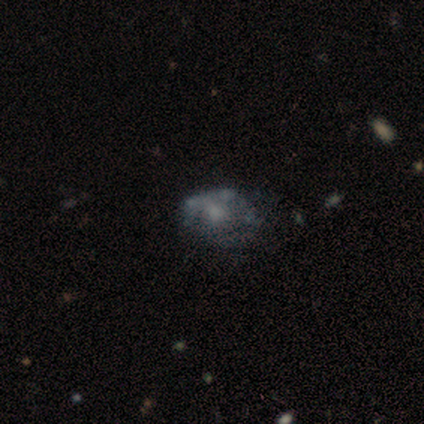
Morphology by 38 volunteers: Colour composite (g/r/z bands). It shows a featured or disk galaxy (53%) with no bar (95%), no spiral arms (85%) and a moderate central bulge (35%). Merging: none (38%, tied with major disturbance).